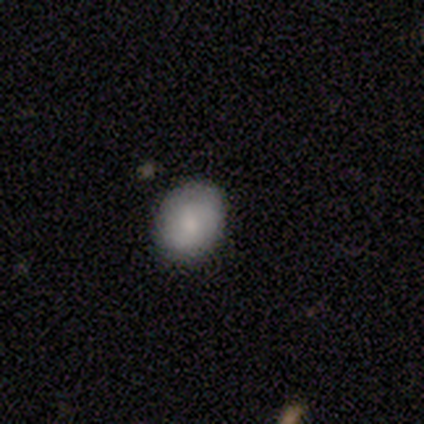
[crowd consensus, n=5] smooth-or-featured: smooth: 80% | featured or disk: 20% | star or artifact: 0%
  how-rounded: round: 75% | in between: 25% | cigar-shaped: 0%
  merging: none: 80% | merger: 20% | minor disturbance: 0% | major disturbance: 0%